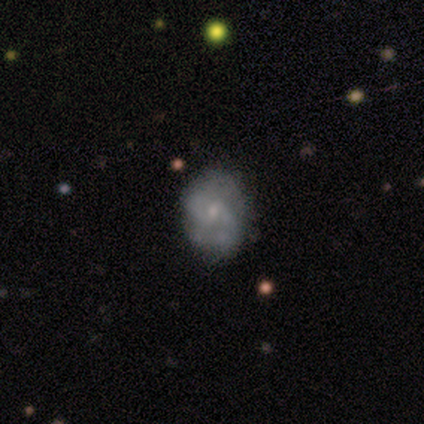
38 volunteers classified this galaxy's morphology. type=featured or disk (66%); edge-on=no (96%); bar=no (50%); spiral arms=yes (71%); winding=medium (41%); arm count=2 (65%); bulge=small (58%); merging=none (64%).